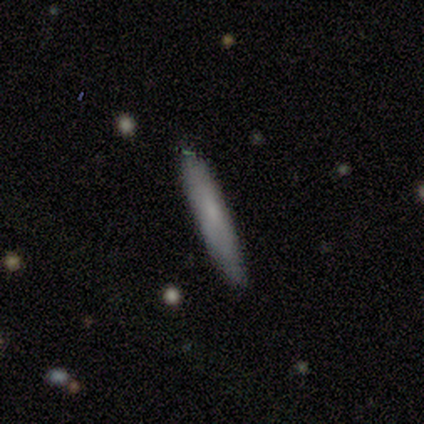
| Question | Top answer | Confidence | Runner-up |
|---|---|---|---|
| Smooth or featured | smooth | 100% | — |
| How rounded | cigar-shaped | 100% | — |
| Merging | none | 100% | — |